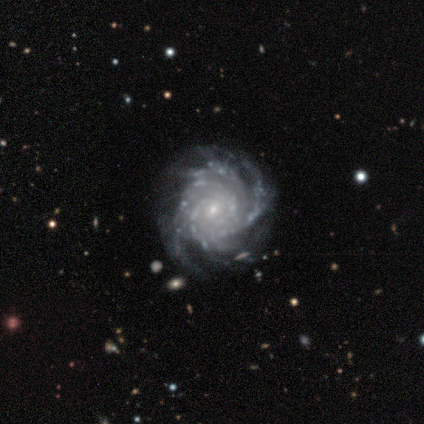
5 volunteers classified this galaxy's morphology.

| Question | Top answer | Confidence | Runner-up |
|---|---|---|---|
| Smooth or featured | featured or disk | 100% | — |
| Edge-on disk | no | 100% | — |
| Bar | no | 80% | weak (20%) |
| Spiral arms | yes | 100% | — |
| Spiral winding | tight | 80% | medium (20%) |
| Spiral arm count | more than 4 | 100% | — |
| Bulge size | small | 80% | moderate (20%) |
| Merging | none | 80% | minor disturbance (20%) |